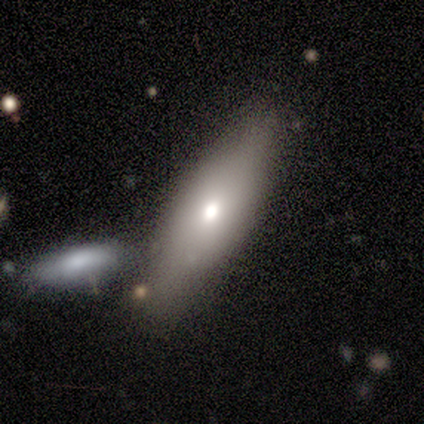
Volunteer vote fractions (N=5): This appears to be a smooth galaxy with no disk features (80%) that is in between round and cigar-shaped (75%). Merging: none (60%).